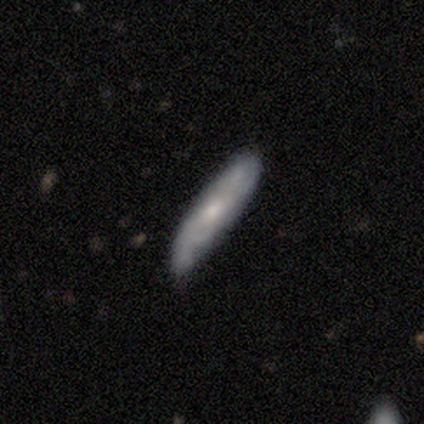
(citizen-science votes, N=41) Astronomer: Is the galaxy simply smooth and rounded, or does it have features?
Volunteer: featured or disk — 68%.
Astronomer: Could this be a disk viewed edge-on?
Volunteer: no — 68%.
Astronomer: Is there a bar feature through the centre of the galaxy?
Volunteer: no — 84%.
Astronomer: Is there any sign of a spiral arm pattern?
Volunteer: yes — 89%.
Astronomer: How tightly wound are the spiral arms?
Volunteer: medium — 47% (runner-up: tight, 41%).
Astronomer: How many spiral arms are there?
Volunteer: can't tell — 65%.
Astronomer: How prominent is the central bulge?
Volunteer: small — 58% (runner-up: moderate, 42%).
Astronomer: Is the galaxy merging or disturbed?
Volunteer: none — 61%.